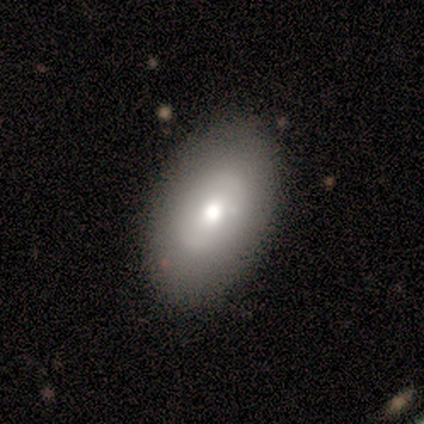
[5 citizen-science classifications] Overall: smooth (100%). How rounded: in between (100%). Merging: none (100%).